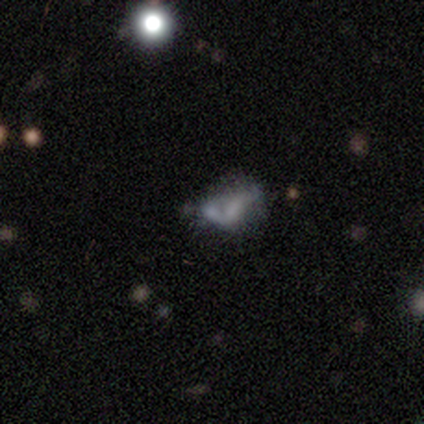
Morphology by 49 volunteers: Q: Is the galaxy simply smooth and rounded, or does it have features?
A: featured or disk — 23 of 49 (47%).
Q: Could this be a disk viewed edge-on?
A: no — 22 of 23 (96%).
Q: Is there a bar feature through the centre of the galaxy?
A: no — 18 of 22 (82%).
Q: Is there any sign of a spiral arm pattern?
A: no — 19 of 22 (86%).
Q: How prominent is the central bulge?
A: none — 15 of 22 (68%).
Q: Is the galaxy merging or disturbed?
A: merger — 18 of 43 (42%).